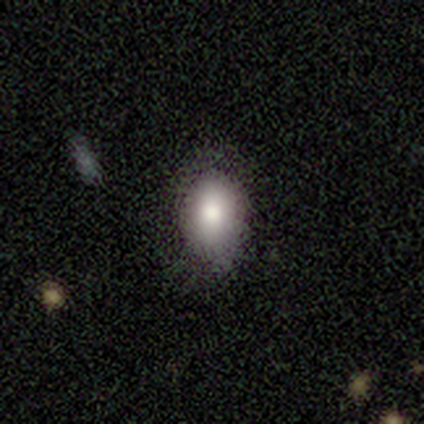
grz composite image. It shows a smooth galaxy with no disk features (60%) that is round (67%). Merging: none (60%).